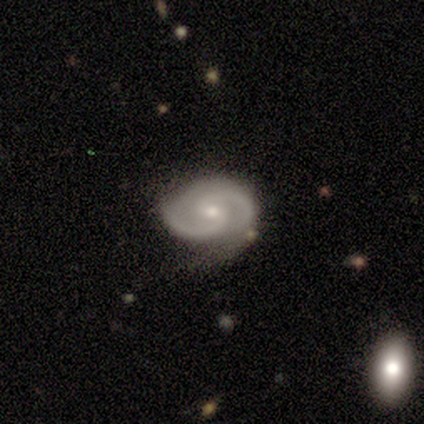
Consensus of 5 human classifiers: Morphology: type=featured or disk (100%); edge-on=no (100%); bar=no (80%); spiral arms=yes (100%); winding=tight (80%); arm count=2 (100%); bulge=small (80%); merging=minor disturbance (60%).